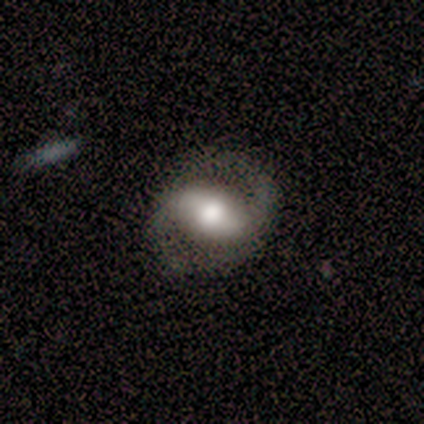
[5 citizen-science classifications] Smooth or featured? featured or disk (80%)
Edge-on disk? no (100%)
Bar? strong (50%)
Spiral arms? yes (75%)
Spiral winding? medium (100%)
Spiral arm count? 2 (67%)
Bulge size? large (50%, tied with moderate)
Merging? none (60%)